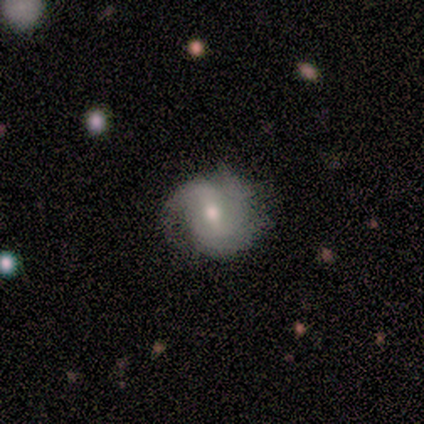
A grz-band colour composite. It shows a featured or disk galaxy (75%) with a weak bar (100%), 2 (100%) medium (50%, tied with loose) spiral arms (67%) and a moderate central bulge (67%). Merging: none (100%).